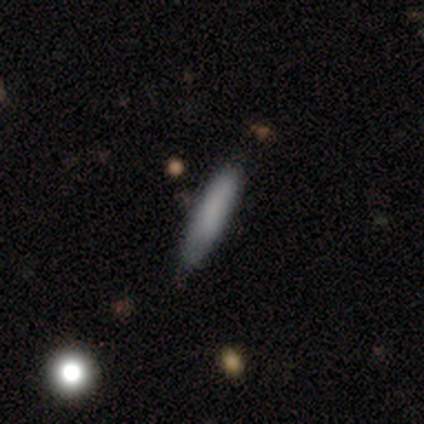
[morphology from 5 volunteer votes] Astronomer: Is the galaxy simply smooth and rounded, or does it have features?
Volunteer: smooth — 60%.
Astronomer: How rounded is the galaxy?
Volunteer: cigar-shaped — 100%.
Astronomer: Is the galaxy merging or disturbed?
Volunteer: none — 100%.